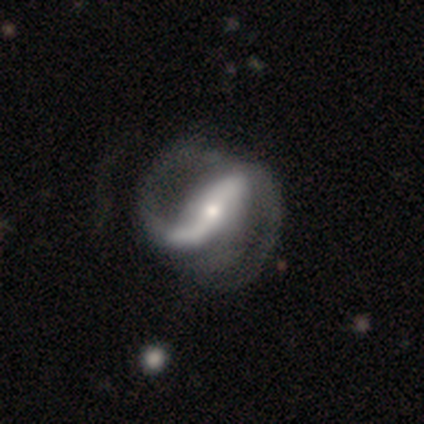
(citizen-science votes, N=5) A featured or disk galaxy (80%) with a strong bar (100%), 2 (100%) medium (100%) spiral arms (100%) and a moderate central bulge (50%, tied with small). Merging: none (100%).